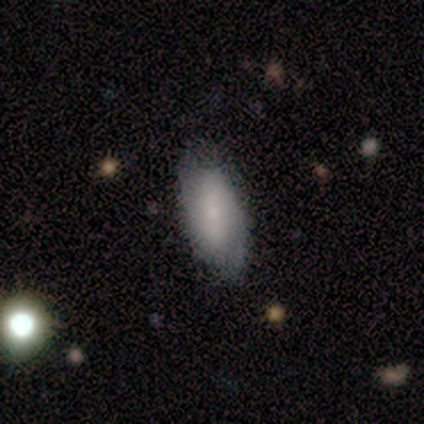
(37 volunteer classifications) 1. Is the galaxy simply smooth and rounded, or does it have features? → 62% smooth, 38% featured or disk, 0% star or artifact.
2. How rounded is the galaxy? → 83% in between, 17% cigar-shaped, 0% round.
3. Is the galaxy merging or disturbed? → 76% none, 24% minor disturbance, 0% major disturbance, 0% merger.